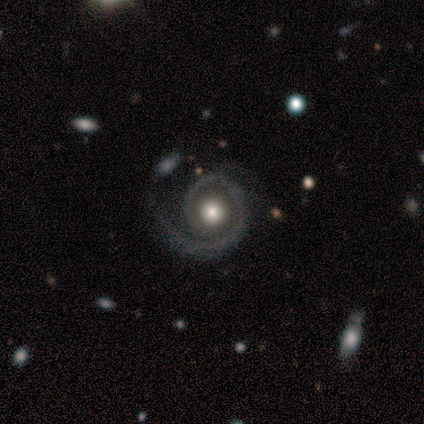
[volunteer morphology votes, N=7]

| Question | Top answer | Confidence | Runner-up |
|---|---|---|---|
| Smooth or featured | featured or disk | 86% | smooth (14%) |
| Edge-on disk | no | 100% | — |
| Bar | no | 83% | weak (17%) |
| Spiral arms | yes | 100% | — |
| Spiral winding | tight | 67% | medium (33%) |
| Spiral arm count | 1 | 83% | 2 (17%) |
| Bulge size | large | 50% | tied: moderate (50%) |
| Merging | none | 71% | minor disturbance (29%) |